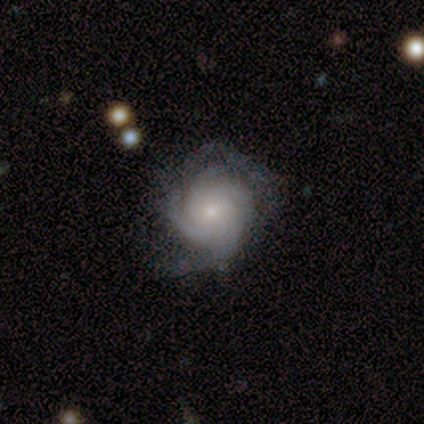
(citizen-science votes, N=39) This appears to be a featured or disk galaxy (79%) with no bar (74%), 3 (35%) tight (48%, tied with medium) spiral arms (100%) and a small central bulge (65%). Merging: none (78%).